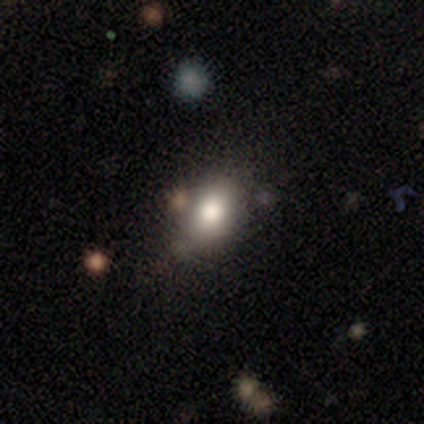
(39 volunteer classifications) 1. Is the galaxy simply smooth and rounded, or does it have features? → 74% smooth, 18% star or artifact, 8% featured or disk.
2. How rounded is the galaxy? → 79% in between, 21% round, 0% cigar-shaped.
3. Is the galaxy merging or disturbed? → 75% none, 16% minor disturbance, 6% merger, 3% major disturbance.